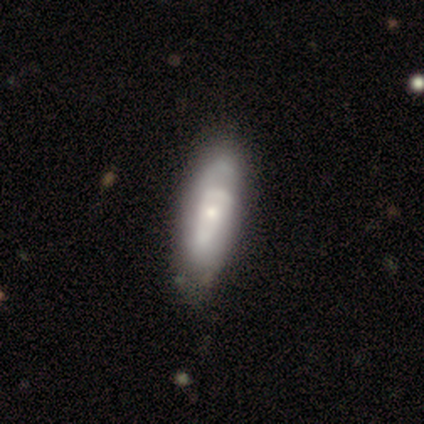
A smooth galaxy with no disk features (50%) that is cigar-shaped (75%).

Vote fractions:
- Smooth or featured? smooth: 50% / featured or disk: 38% / star or artifact: 12%
- How rounded? cigar-shaped: 75% / in between: 25% / round: 0%
- Merging? none: 57% / minor disturbance: 43% / major disturbance: 0% / merger: 0%